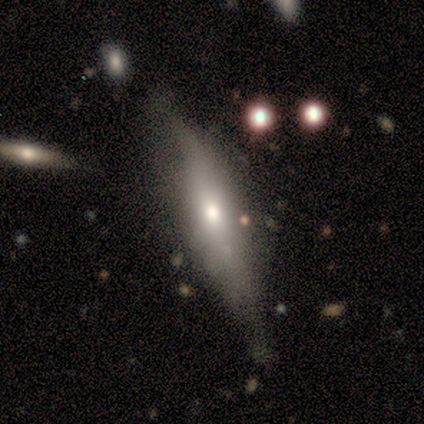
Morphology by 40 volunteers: featured or disk 60%, smooth 35%, star or artifact 5%. Down the decision tree: edge-on disk — yes (71%); edge-on bulge — rounded (71%); merging — none (39%).